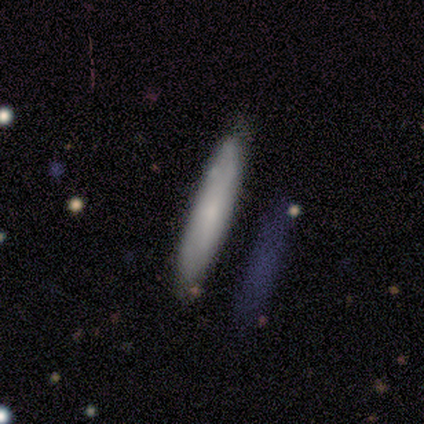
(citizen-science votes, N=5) This is clearly a smooth galaxy (80%). How rounded: clearly cigar-shaped (100%). Merging: clearly none (100%).